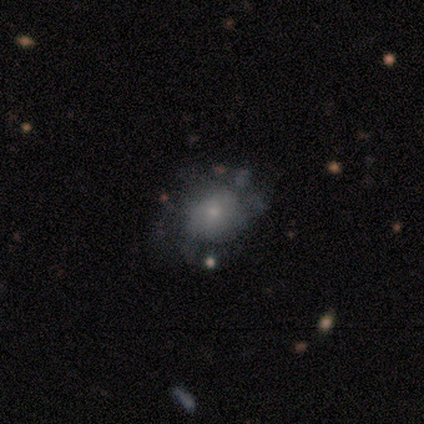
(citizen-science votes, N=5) A featured or disk galaxy (60%) with no bar (67%), no spiral arms (100%) and a small central bulge (100%).

Vote fractions:
- Smooth or featured? featured or disk: 60% / smooth: 40% / star or artifact: 0%
- Edge-on disk? no: 100% / yes: 0%
- Bar? no: 67% / weak: 33% / strong: 0%
- Spiral arms? no: 100% / yes: 0%
- Bulge size? small: 100% / dominant: 0% / large: 0% / moderate: 0% / none: 0%
- Merging? none: 40% (tied) / minor disturbance: 40% (tied) / major disturbance: 20% / merger: 0%